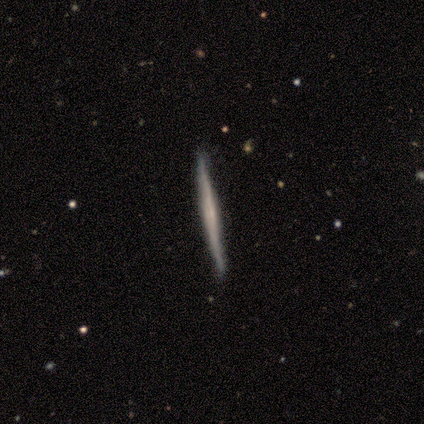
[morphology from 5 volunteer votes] featured or disk 60%, smooth 40%, star or artifact 0%. Down the decision tree: edge-on disk — yes (100%); edge-on bulge — none (100%); merging — none (100%).